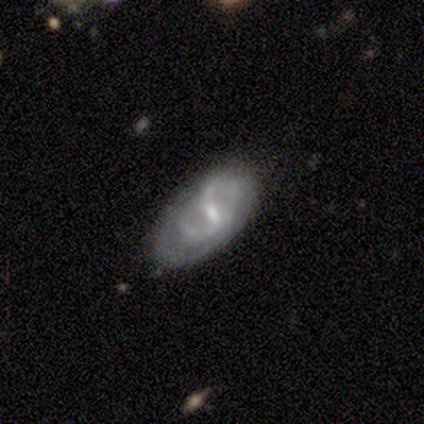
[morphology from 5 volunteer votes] Overall: featured or disk (80%). Edge-on disk: no (100%). Bar: weak (75%). Spiral arms: yes (50%, tied with no). Spiral arm count: 2 (100%). Spiral winding: medium (100%). Bulge size: small (100%). Merging: minor disturbance (60%; none 40%).